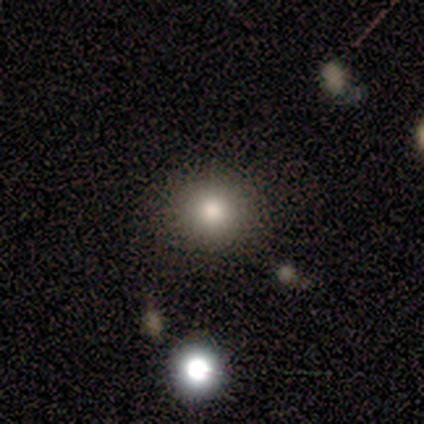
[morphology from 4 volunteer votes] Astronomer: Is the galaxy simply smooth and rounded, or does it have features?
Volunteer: star or artifact — 50%.